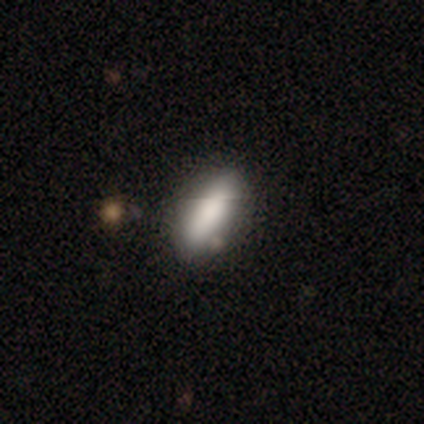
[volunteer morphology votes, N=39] A smooth galaxy with no disk features (79%) that is in between round and cigar-shaped (81%).

Vote fractions:
- Smooth or featured? smooth: 79% / featured or disk: 18% / star or artifact: 3%
- How rounded? in between: 81% / cigar-shaped: 16% / round: 3%
- Merging? none: 61% / minor disturbance: 8% / merger: 5% / major disturbance: 0%